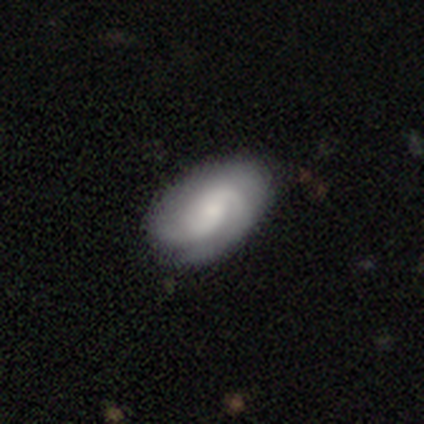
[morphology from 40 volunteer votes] A featured or disk galaxy (82%) with no bar (55%), 2 (82%) medium (42%) spiral arms (100%) and a moderate central bulge (61%).

Vote fractions:
- Smooth or featured? featured or disk: 82% / smooth: 18% / star or artifact: 0%
- Edge-on disk? no: 100% / yes: 0%
- Bar? no: 55% / weak: 39% / strong: 6%
- Spiral arms? yes: 100% / no: 0%
- Spiral winding? medium: 42% / loose: 30% / tight: 27%
- Spiral arm count? 2: 82% / can't tell: 15% / 4: 3% / 1: 0% / 3: 0% / more than 4: 0%
- Bulge size? moderate: 61% / small: 36% / large: 3% / dominant: 0% / none: 0%
- Merging? none: 48% / minor disturbance: 18% / major disturbance: 10% / merger: 0%